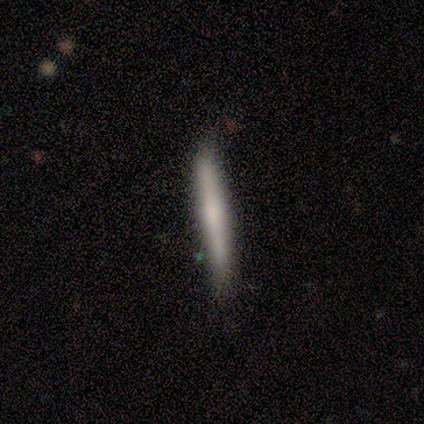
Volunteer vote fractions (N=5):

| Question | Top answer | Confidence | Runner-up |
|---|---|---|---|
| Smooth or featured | smooth | 60% | featured or disk (20%) |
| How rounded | cigar-shaped | 100% | — |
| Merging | none | 50% | tied: minor disturbance (50%) |